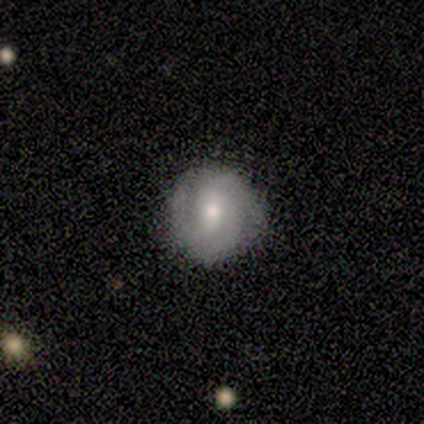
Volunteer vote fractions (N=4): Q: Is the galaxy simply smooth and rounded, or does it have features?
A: featured or disk — 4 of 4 (100%).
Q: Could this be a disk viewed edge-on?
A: no — 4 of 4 (100%).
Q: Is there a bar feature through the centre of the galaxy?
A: weak — 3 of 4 (75%).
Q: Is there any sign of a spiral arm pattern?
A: yes — 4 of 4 (100%).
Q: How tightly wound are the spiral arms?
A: medium — 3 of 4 (75%).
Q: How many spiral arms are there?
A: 3 — 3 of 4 (75%).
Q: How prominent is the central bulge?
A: moderate — 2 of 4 (50%, tied with small).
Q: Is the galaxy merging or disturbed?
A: none — 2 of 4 (50%, tied with minor disturbance).